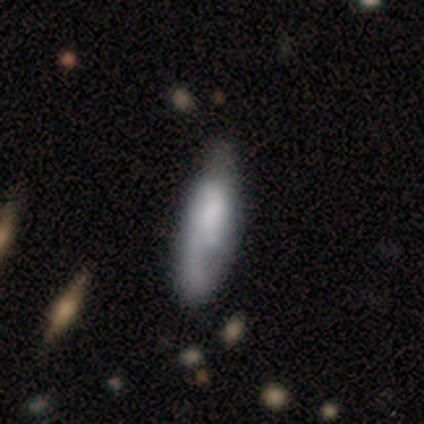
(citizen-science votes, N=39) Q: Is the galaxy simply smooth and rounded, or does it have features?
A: smooth — 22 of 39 (56%).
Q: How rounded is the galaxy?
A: in between — 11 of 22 (50%, tied with cigar-shaped).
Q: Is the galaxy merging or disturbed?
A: minor disturbance — 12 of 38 (32%).